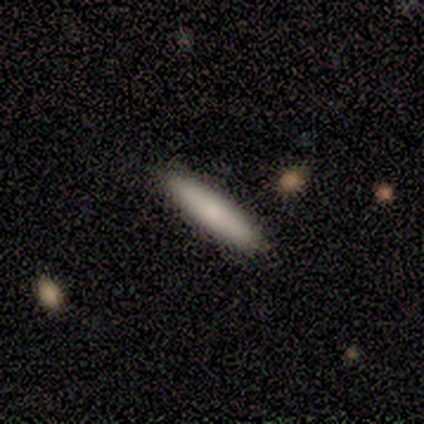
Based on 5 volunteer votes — smooth 60%, featured or disk 20%, star or artifact 20%. Down the decision tree: how rounded — cigar-shaped (100%); merging — none (100%).